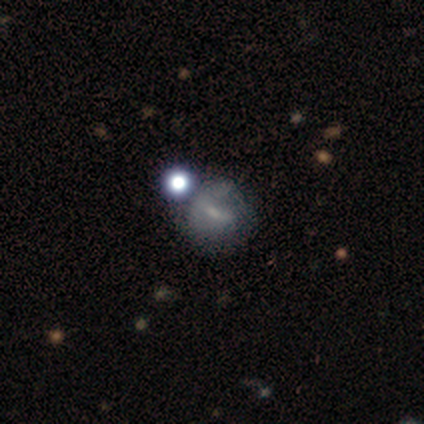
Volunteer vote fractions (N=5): Morphology: type=smooth (80%); roundness=round (75%); merging=none (40%, tied with minor disturbance).